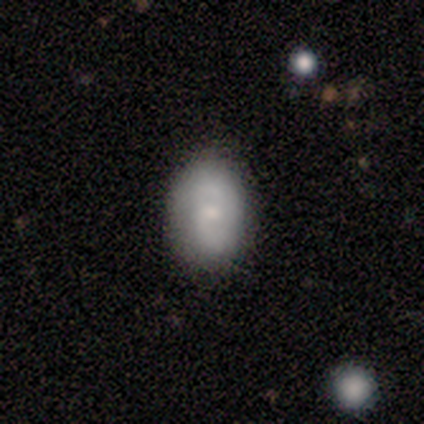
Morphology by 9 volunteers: Smooth or featured? 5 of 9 (56%) said smooth. How rounded? 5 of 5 (100%) said in between. Merging? 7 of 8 (88%) said none.